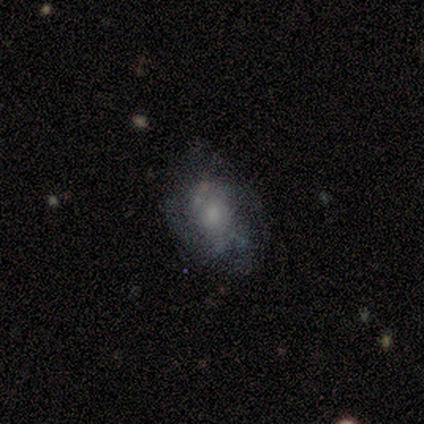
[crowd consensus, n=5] This is clearly a featured or disk galaxy (80%). It is clearly not viewed edge-on (100%). Bar: clearly no (100%). Spiral arm pattern: possibly yes (50%, tied with no). Spiral arm count: clearly can't tell (100%). Spiral winding: possibly tight (50%, tied with medium). Central bulge: possibly moderate (50%). Merging: likely none (60%).